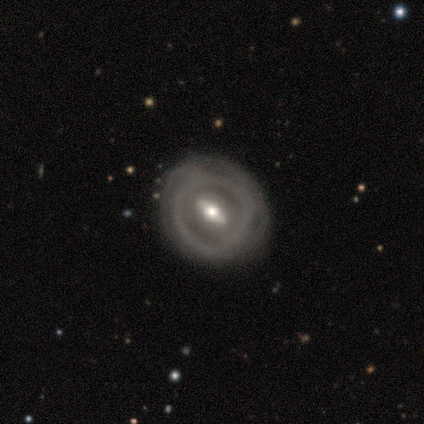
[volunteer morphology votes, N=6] A featured or disk galaxy (100%) with a weak bar (60%), no spiral arms (100%) and a large central bulge (40%, tied with moderate).

Vote fractions:
- Smooth or featured? featured or disk: 100% / smooth: 0% / star or artifact: 0%
- Edge-on disk? no: 83% / yes: 17%
- Bar? weak: 60% / strong: 40% / no: 0%
- Spiral arms? no: 100% / yes: 0%
- Bulge size? large: 40% (tied) / moderate: 40% (tied) / small: 20% / dominant: 0% / none: 0%
- Merging? none: 67% / minor disturbance: 33% / major disturbance: 0% / merger: 0%